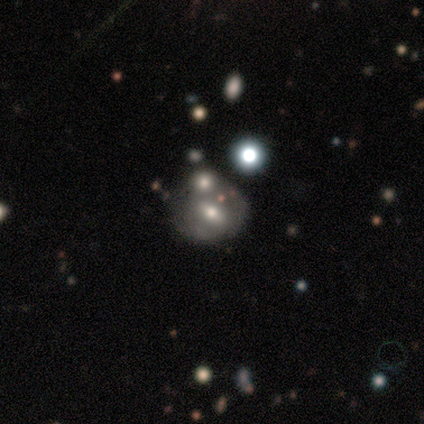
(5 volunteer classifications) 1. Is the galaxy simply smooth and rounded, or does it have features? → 60% featured or disk, 40% smooth, 0% star or artifact.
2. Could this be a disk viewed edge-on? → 67% yes, 33% no.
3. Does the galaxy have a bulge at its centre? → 100% rounded, 0% boxy, 0% none.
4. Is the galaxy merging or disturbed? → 40% none (tied), 40% merger (tied), 20% minor disturbance, 0% major disturbance.